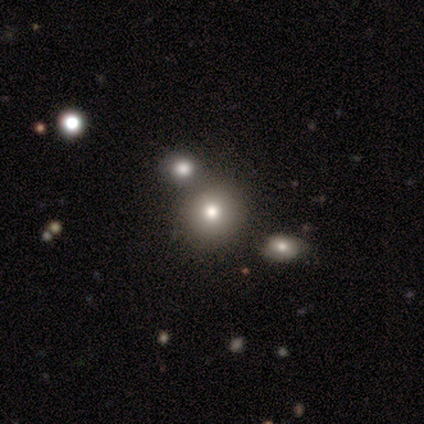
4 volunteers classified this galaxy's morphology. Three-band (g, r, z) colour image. It shows a smooth galaxy with no disk features (100%) that is round (75%). Merging: none (50%).